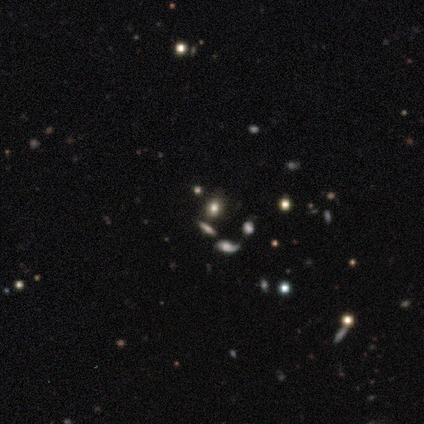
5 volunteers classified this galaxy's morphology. A smooth galaxy with no disk features (80%) that is round (75%). Merging: none (100%).